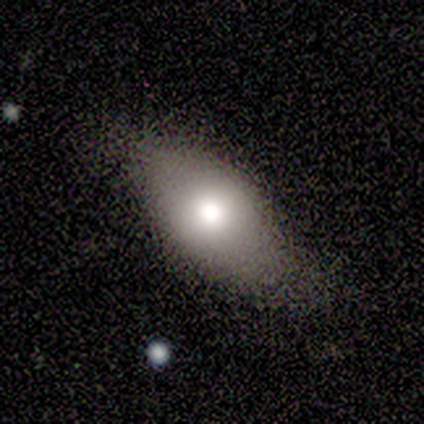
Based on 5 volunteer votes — This appears to be a smooth galaxy with no disk features (60%) that is in between round and cigar-shaped (100%). Merging: none (67%).